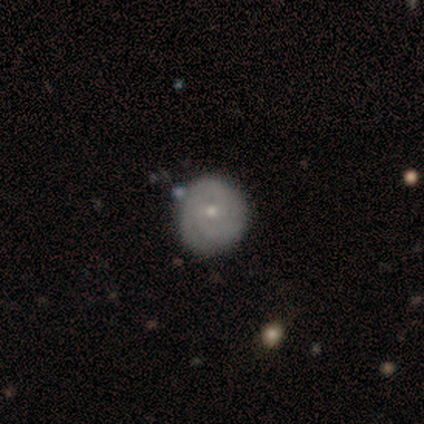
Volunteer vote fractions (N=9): smooth-or-featured: featured or disk: 56% | smooth: 33% | star or artifact: 11%
  disk-edge-on: no: 100% | yes: 0%
    bar: no: 80% | weak: 20% | strong: 0%
    has-spiral-arms: yes: 80% | no: 20%
      spiral-winding: tight: 75% | medium: 25% | loose: 0%
      spiral-arm-count: 2: 50% | 3: 25% | can't tell: 25% | 1: 0% | 4: 0% | more than 4: 0%
    bulge-size: small: 80% | moderate: 20% | dominant: 0% | large: 0% | none: 0%
  merging: none: 75% | minor disturbance: 25% | major disturbance: 0% | merger: 0%